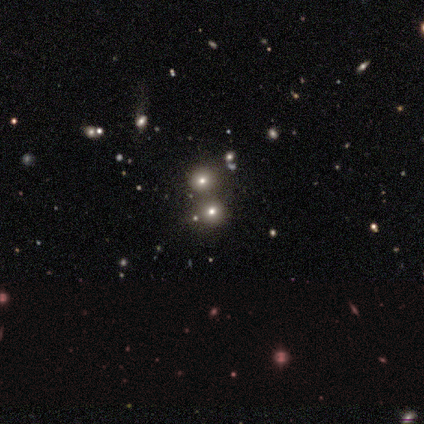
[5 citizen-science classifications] Smooth or featured? 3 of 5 (60%) said smooth. How rounded? 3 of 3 (100%) said round. Merging? 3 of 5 (60%) said merger.